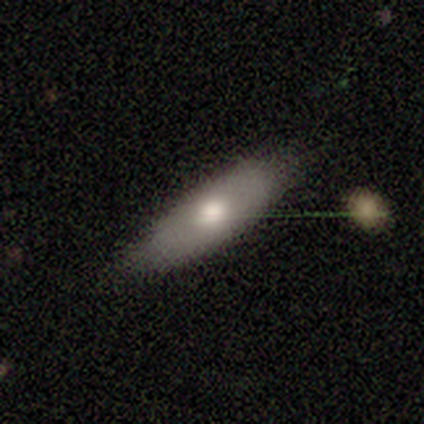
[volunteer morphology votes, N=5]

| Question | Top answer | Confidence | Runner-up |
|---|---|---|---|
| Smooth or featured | smooth | 80% | star or artifact (20%) |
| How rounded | in between | 75% | cigar-shaped (25%) |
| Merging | none | 75% | minor disturbance (25%) |